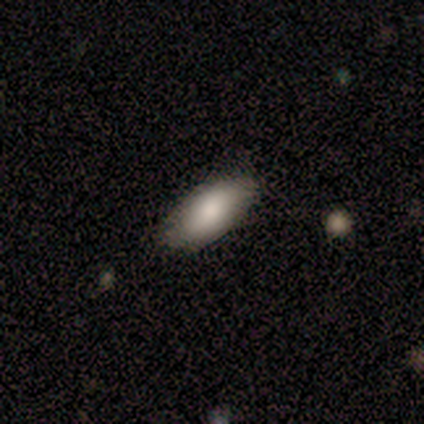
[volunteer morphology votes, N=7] This appears to be a smooth galaxy with no disk features (100%) that is in between round and cigar-shaped (71%). Merging: none (100%).